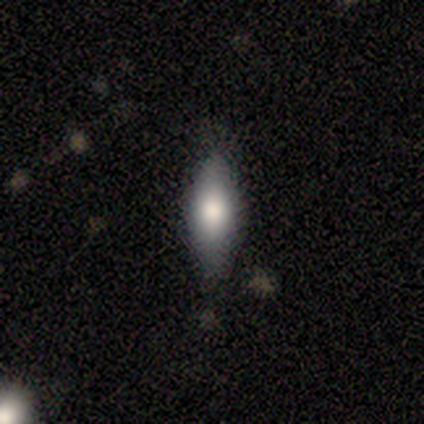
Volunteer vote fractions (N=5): This is clearly a smooth galaxy (80%). How rounded: possibly round (50%). Merging: likely minor disturbance (60%).